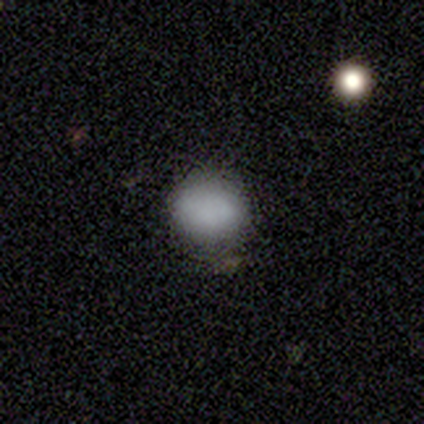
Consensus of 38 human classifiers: This is clearly a smooth galaxy (92%). How rounded: clearly round (80%). Merging: clearly none (92%).